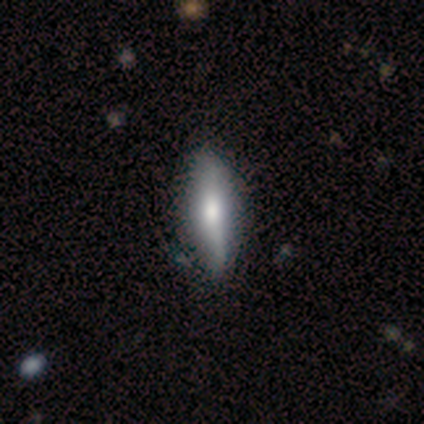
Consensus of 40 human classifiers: Smooth or featured: smooth — 62% (featured or disk — 38%)
How rounded: cigar-shaped — 56% (in between — 44%)
Merging: none — 60% (minor disturbance — 15%)